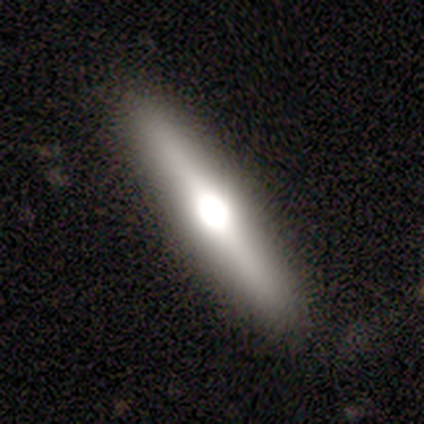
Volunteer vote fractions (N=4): A featured or disk galaxy (75%) viewed edge-on (67%) with a rounded central bulge (100%).

Vote fractions:
- Smooth or featured? featured or disk: 75% / smooth: 25% / star or artifact: 0%
- Edge-on disk? yes: 67% / no: 33%
- Edge-on bulge? rounded: 100% / boxy: 0% / none: 0%
- Merging? none: 75% / minor disturbance: 25% / major disturbance: 0% / merger: 0%